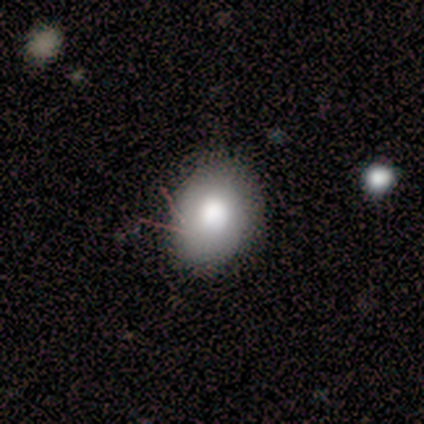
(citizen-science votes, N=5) Smooth or featured: smooth — 100%
How rounded: in between — 60% (round — 40%)
Merging: none — 100%